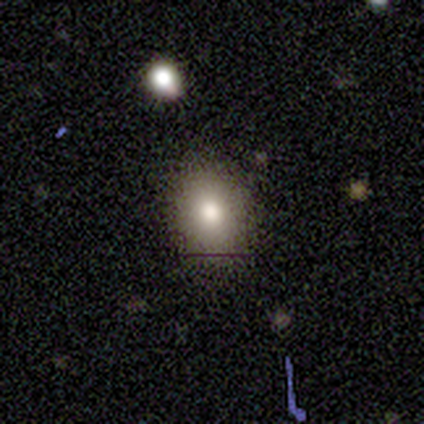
Smooth or featured?
  - smooth: 100% *
  - featured or disk: 0%
  - star or artifact: 0%
How rounded?
  - in between: 60% *
  - round: 40%
  - cigar-shaped: 0%
Merging?
  - none: 100% *
  - minor disturbance: 0%
  - major disturbance: 0%
  - merger: 0%